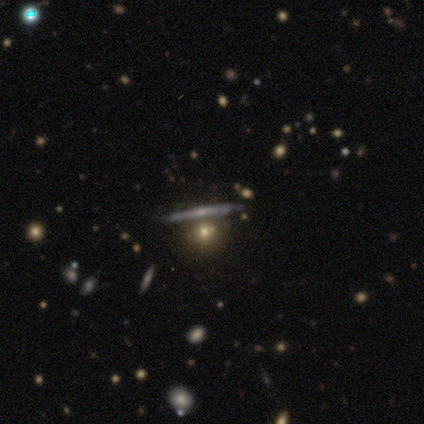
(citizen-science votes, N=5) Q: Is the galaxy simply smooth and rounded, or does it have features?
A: smooth — 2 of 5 (40%, tied with featured or disk).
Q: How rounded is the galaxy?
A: round — 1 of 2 (50%, tied with cigar-shaped).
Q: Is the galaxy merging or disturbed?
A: none — 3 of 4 (75%).